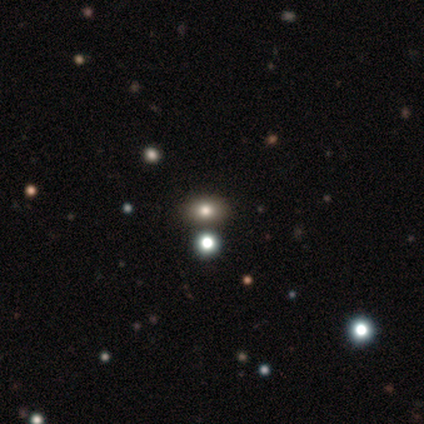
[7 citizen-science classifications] Smooth or featured? star or artifact (57%)